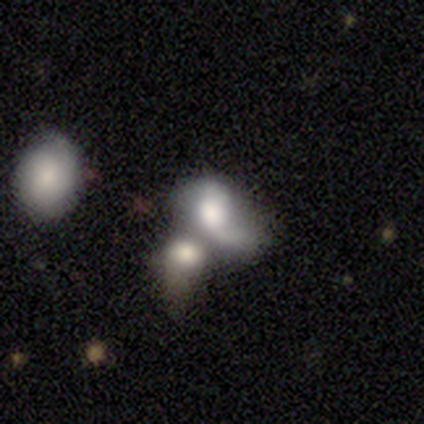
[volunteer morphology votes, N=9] This appears to be a smooth galaxy with no disk features (44%, tied with featured or disk) that is round (50%, tied with in between). Merging: merger (88%).